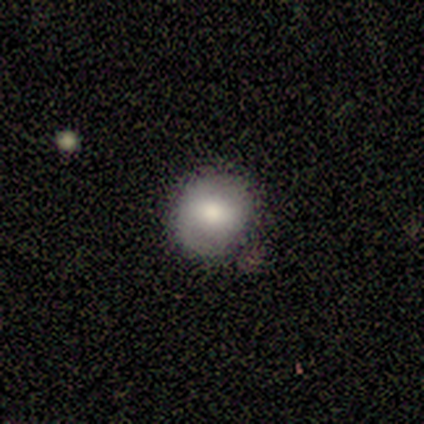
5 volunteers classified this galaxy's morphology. Smooth or featured: smooth — 40% (tied with featured or disk — 40%)
How rounded: round — 100%
Merging: none — 75% (minor disturbance — 25%)